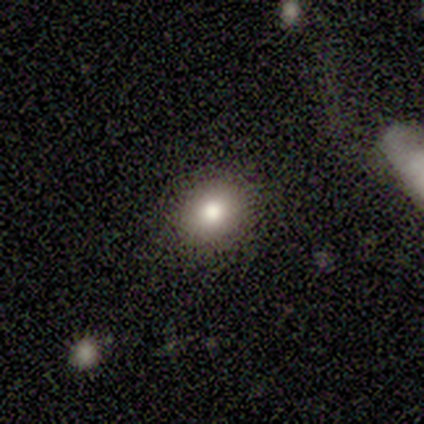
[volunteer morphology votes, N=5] Smooth or featured?
  - smooth: 100% *
  - featured or disk: 0%
  - star or artifact: 0%
How rounded?
  - round: 60% *
  - in between: 40%
  - cigar-shaped: 0%
Merging?
  - none: 100% *
  - minor disturbance: 0%
  - major disturbance: 0%
  - merger: 0%